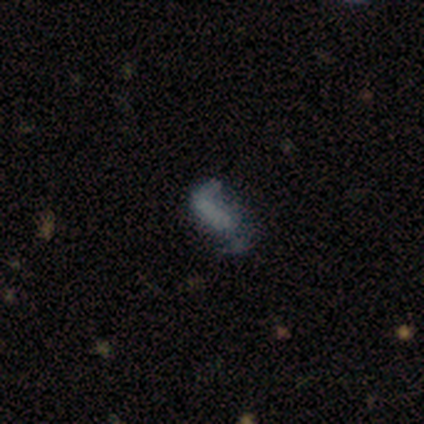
Volunteers were most divided on "smooth or featured": smooth: 60%, star or artifact: 40%, featured or disk: 0%. More confident: how rounded — in between (100%); merging — minor disturbance (67%).